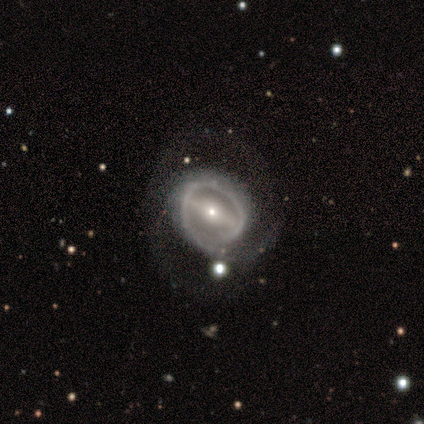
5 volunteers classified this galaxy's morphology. smooth_or_featured: featured or disk (p=1.00)
disk_edge_on: no (p=1.00)
bar: strong (p=1.00)
has_spiral_arms: yes (p=0.60) [alt: no p=0.40]
spiral_winding: medium (p=0.67) [alt: tight p=0.33]
spiral_arm_count: can't tell (p=0.67) [alt: 1 p=0.33]
bulge_size: small (p=0.80) [alt: moderate p=0.20]
merging: none (p=0.40) [tied with: minor disturbance p=0.40]